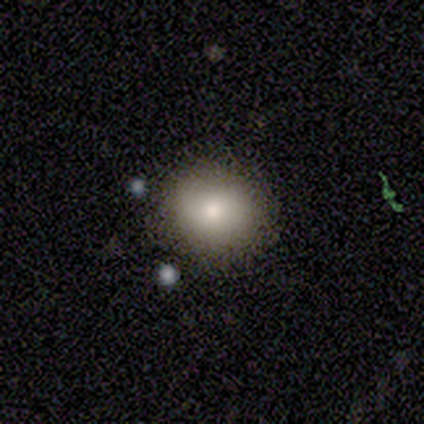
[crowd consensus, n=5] Smooth or featured?
  - smooth: 80% *
  - star or artifact: 20%
  - featured or disk: 0%
How rounded?
  - round: 75% *
  - in between: 25%
  - cigar-shaped: 0%
Merging?
  - none: 100% *
  - minor disturbance: 0%
  - major disturbance: 0%
  - merger: 0%